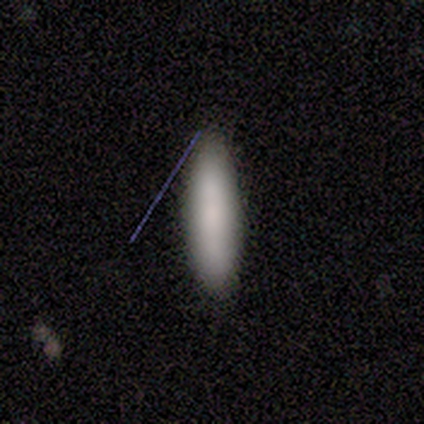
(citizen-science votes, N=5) Overall: smooth (60%; featured or disk 40%). How rounded: cigar-shaped (67%; in between 33%). Merging: none (80%).